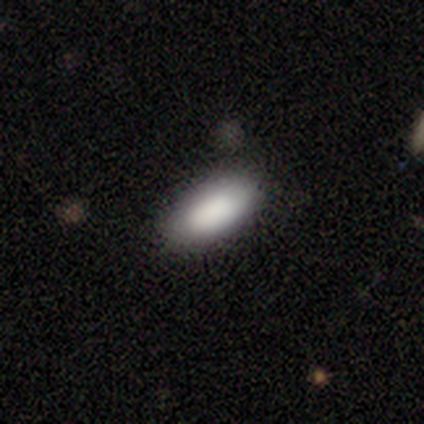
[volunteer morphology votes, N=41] Q: Smooth or featured?
A: smooth (85%); runner-up: star or artifact (10%)
Q: How rounded?
A: in between (94%); runner-up: cigar-shaped (6%)
Q: Merging?
A: none (89%); runner-up: minor disturbance (11%)